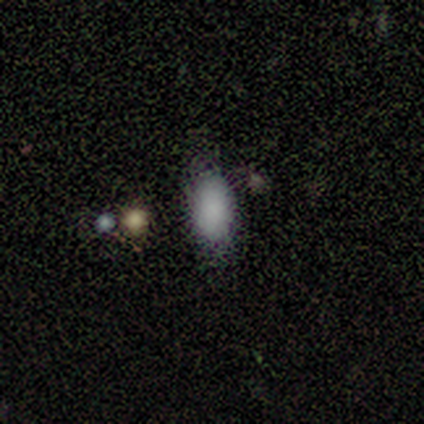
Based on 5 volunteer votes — Smooth or featured? smooth (80%)
How rounded? in between (100%)
Merging? none (75%)